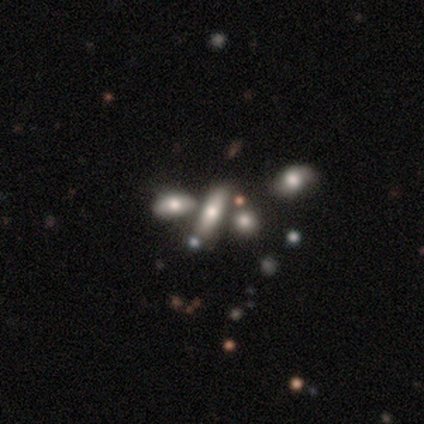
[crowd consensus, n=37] smooth-or-featured: smooth: 59% | featured or disk: 32% | star or artifact: 8%
  how-rounded: in between: 55% | cigar-shaped: 45% | round: 0%
  merging: merger: 59% | none: 0% | minor disturbance: 0% | major disturbance: 0%